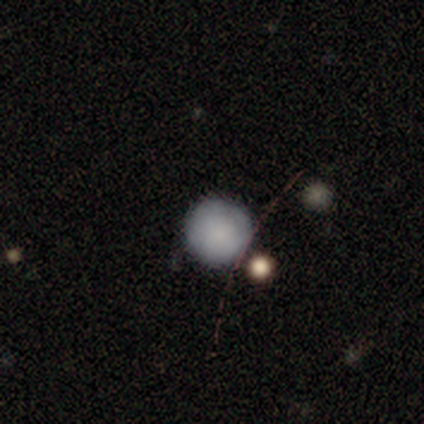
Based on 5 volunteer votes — A smooth galaxy with no disk features (80%) that is round (100%).

Vote fractions:
- Smooth or featured? smooth: 80% / featured or disk: 20% / star or artifact: 0%
- How rounded? round: 100% / in between: 0% / cigar-shaped: 0%
- Merging? none: 60% / minor disturbance: 20% / major disturbance: 20% / merger: 0%